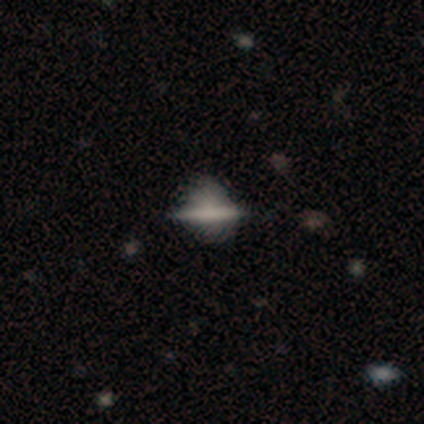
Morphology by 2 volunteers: smooth-or-featured: smooth: 50% (tied) | featured or disk: 50% (tied) | star or artifact: 0%
  how-rounded: cigar-shaped: 100% | round: 0% | in between: 0%
  merging: none: 50% (tied) | minor disturbance: 50% (tied) | major disturbance: 0% | merger: 0%